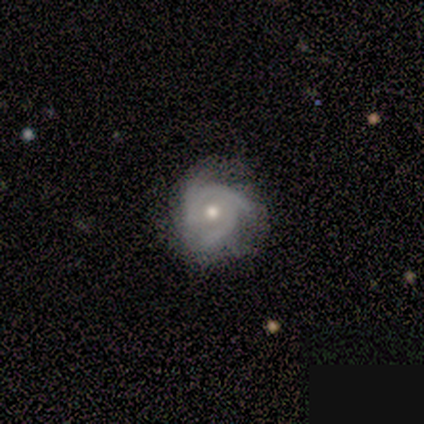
Overall: featured or disk (100%). Edge-on disk: no (100%). Bar: no (100%). Spiral arms: yes (100%). Spiral arm count: 3 (50%, tied with can't tell). Spiral winding: tight (75%). Bulge size: small (50%; moderate 25%). Merging: none (100%).